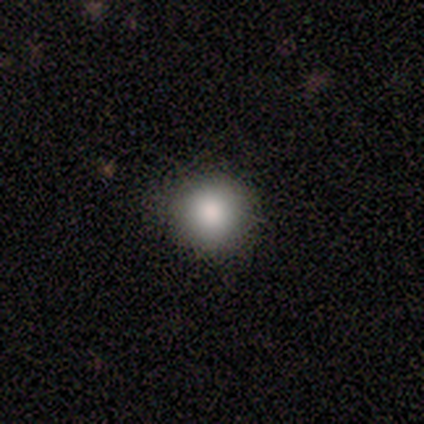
smooth 100%, featured or disk 0%, star or artifact 0%. Down the decision tree: how rounded — round (100%); merging — none (100%).